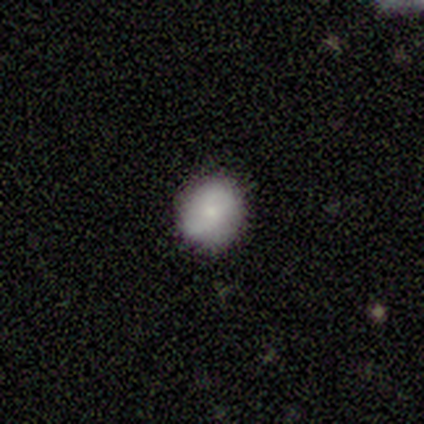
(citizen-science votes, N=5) smooth 80%, featured or disk 20%, star or artifact 0%. Down the decision tree: how rounded — round (100%); merging — none (80%).